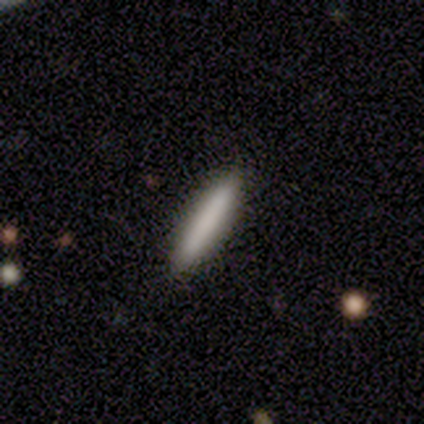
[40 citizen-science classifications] Smooth or featured? smooth (88%)
How rounded? cigar-shaped (94%)
Merging? none (97%)